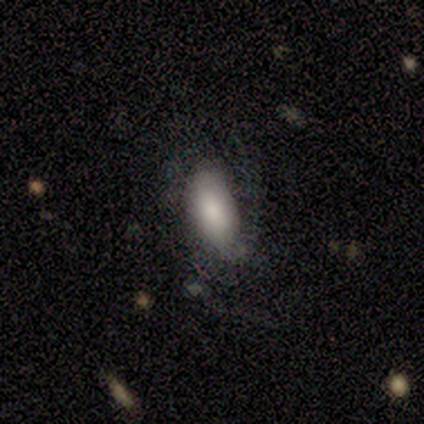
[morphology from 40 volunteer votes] smooth 65%, featured or disk 18%, star or artifact 18%. Down the decision tree: how rounded — in between (92%); merging — none (48%).